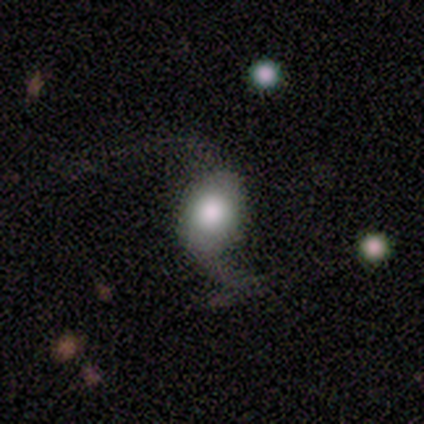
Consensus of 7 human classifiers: Smooth or featured? featured or disk (57%)
Edge-on disk? no (100%)
Bar? no (75%)
Spiral arms? yes (100%)
Spiral winding? loose (100%)
Spiral arm count? 2 (100%)
Bulge size? large (75%)
Merging? none (33%, tied with minor disturbance and major disturbance)